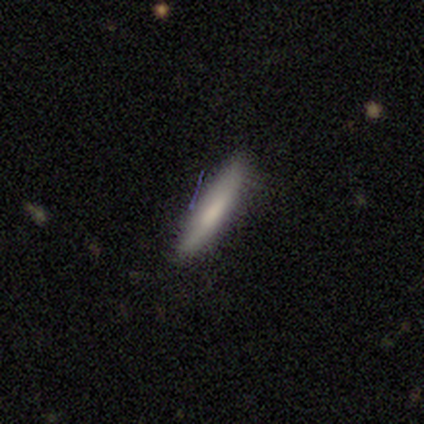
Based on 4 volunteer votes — Smooth or featured? smooth (75%)
How rounded? cigar-shaped (100%)
Merging? none (75%)